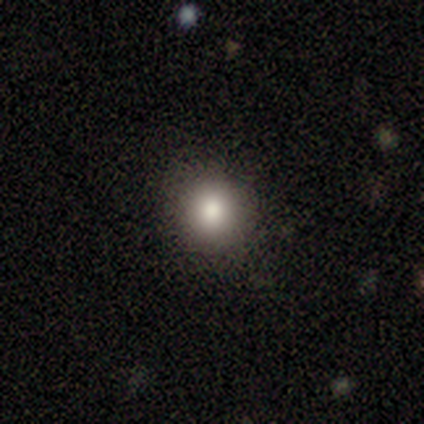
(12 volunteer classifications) Smooth or featured?
  - smooth: 83% *
  - featured or disk: 8%
  - star or artifact: 8%
How rounded?
  - round: 100% *
  - in between: 0%
  - cigar-shaped: 0%
Merging?
  - none: 73% *
  - minor disturbance: 27%
  - major disturbance: 0%
  - merger: 0%